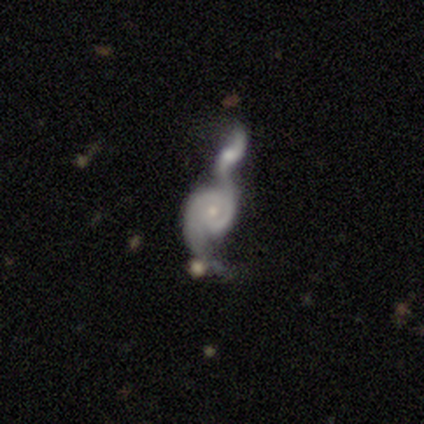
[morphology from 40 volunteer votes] Smooth or featured? 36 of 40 (90%) said featured or disk. Edge-on disk? 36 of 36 (100%) said no. Bar? 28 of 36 (78%) said no. Spiral arms? 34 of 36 (94%) said yes. Spiral winding? 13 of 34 (38%, tied with loose) said tight. Spiral arm count? 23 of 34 (68%) said 2. Bulge size? 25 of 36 (69%) said small. Merging? 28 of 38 (74%) said merger.